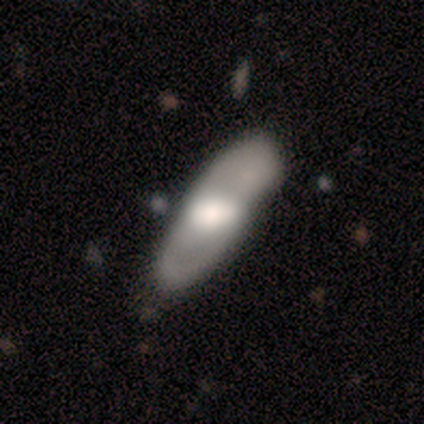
smooth_or_featured: smooth (p=0.80) [alt: featured or disk p=0.20]
how_rounded: in between (p=0.50) [tied with: cigar-shaped p=0.50]
merging: none (p=0.60) [alt: minor disturbance p=0.40]